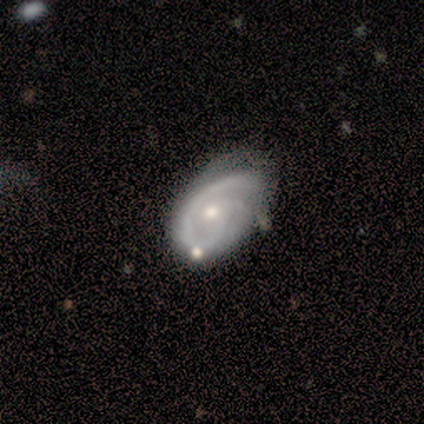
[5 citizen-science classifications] smooth-or-featured: featured or disk: 60% | smooth: 40% | star or artifact: 0%
  disk-edge-on: no: 100% | yes: 0%
    bar: no: 67% | weak: 33% | strong: 0%
    has-spiral-arms: yes: 100% | no: 0%
      spiral-winding: medium: 100% | tight: 0% | loose: 0%
      spiral-arm-count: 1: 33% (tied) | 2: 33% (tied) | can't tell: 33% (tied) | 3: 0% | 4: 0% | more than 4: 0%
    bulge-size: small: 67% | moderate: 33% | dominant: 0% | large: 0% | none: 0%
  merging: merger: 40% | none: 20% | minor disturbance: 20% | major disturbance: 20%